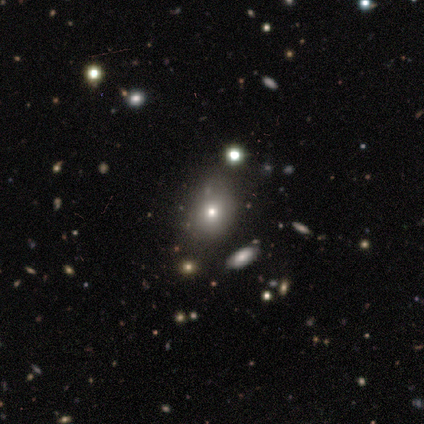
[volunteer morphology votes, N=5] type=star or artifact (60%).